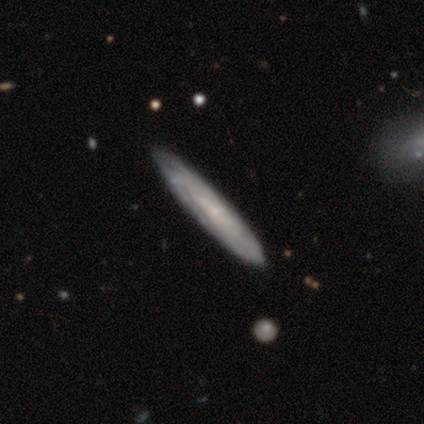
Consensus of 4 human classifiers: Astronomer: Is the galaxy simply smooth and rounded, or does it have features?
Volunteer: featured or disk — 75%.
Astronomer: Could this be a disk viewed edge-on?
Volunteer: yes — 100%.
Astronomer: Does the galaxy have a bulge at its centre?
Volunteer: none — 100%.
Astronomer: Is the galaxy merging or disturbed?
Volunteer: none — 100%.